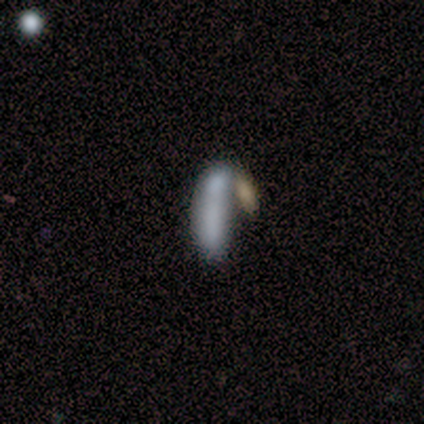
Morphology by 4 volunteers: Smooth or featured? 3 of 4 (75%) said smooth. How rounded? 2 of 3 (67%) said cigar-shaped. Merging? 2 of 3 (67%) said merger.